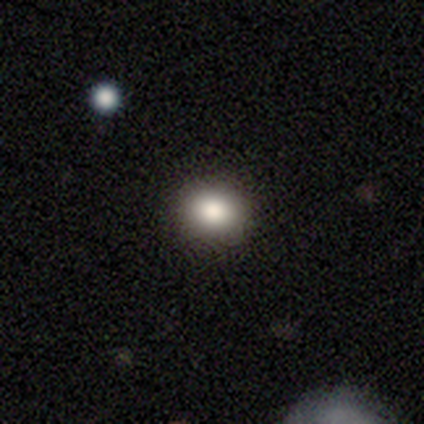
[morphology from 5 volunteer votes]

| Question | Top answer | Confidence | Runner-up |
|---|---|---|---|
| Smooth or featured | smooth | 80% | star or artifact (20%) |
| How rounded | in between | 75% | round (25%) |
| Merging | none | 75% | minor disturbance (25%) |